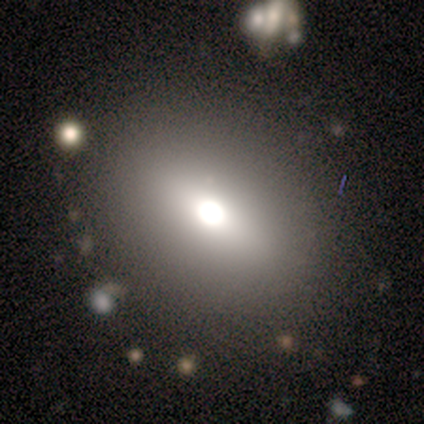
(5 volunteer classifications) smooth-or-featured: smooth: 60% | featured or disk: 20% | star or artifact: 20%
  how-rounded: in between: 100% | round: 0% | cigar-shaped: 0%
  merging: none: 100% | minor disturbance: 0% | major disturbance: 0% | merger: 0%